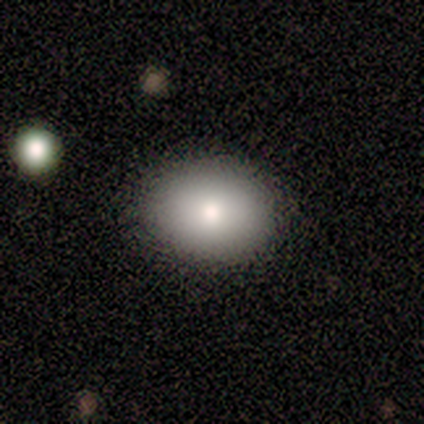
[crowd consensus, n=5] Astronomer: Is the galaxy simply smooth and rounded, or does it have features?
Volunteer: smooth — 80%.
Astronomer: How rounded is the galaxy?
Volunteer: round — 75%.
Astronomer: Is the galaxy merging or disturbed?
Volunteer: none — 100%.